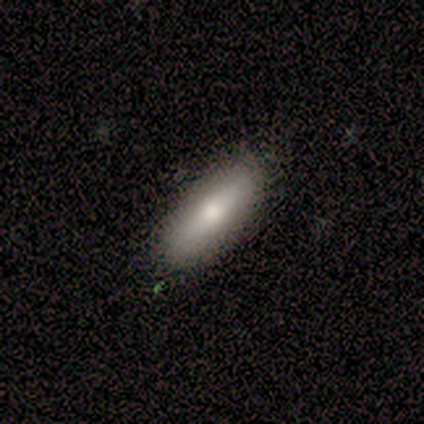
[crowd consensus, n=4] Q: Smooth or featured?
A: smooth (100%)
Q: How rounded?
A: in between (50%); tied with: cigar-shaped (50%)
Q: Merging?
A: none (75%); runner-up: minor disturbance (25%)